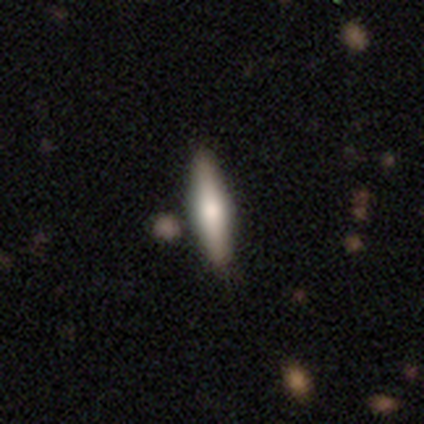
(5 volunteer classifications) Morphology: type=featured or disk (60%); edge-on=yes (100%); edge-on bulge=rounded (100%); merging=none (100%).